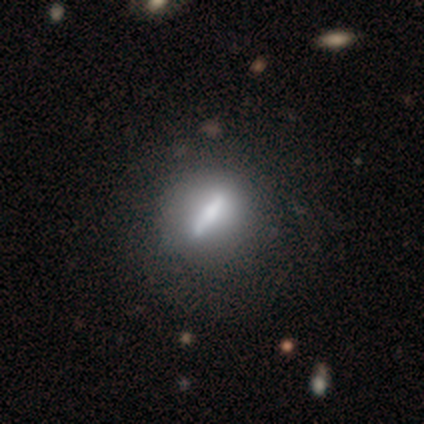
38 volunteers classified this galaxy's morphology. This is likely a featured or disk galaxy (66%). It is likely not viewed edge-on (72%). Bar: likely strong (67%). Spiral arm pattern: clearly no (89%). Central bulge: marginally small (39%). Merging: possibly none (59%).